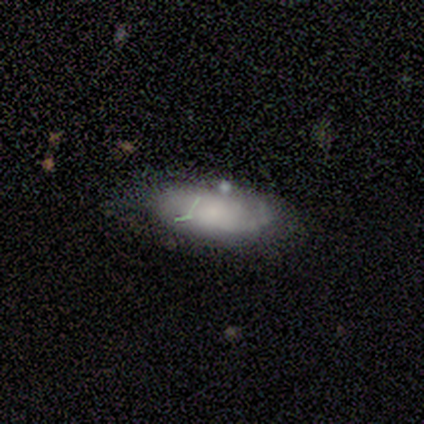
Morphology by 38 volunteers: smooth-or-featured: smooth: 50% | featured or disk: 37% | star or artifact: 13%
  how-rounded: in between: 89% | cigar-shaped: 11% | round: 0%
  merging: none: 61% | minor disturbance: 36% | merger: 3% | major disturbance: 0%